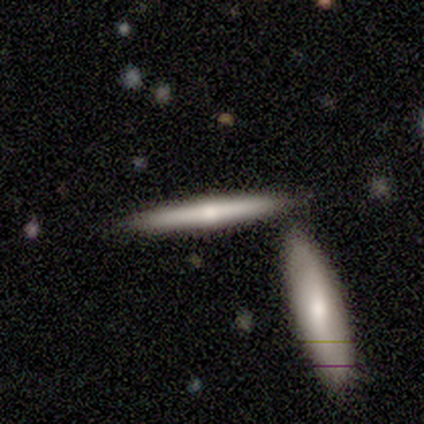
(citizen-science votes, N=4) This appears to be a featured or disk galaxy (75%) viewed edge-on (100%) with a rounded central bulge (67%). Merging: none (100%).